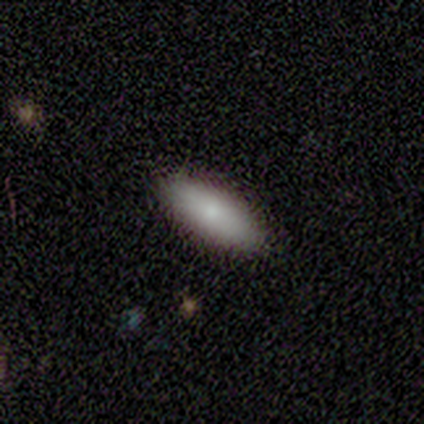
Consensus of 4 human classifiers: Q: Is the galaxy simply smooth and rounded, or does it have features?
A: smooth — 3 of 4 (75%).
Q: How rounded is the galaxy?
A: in between — 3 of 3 (100%).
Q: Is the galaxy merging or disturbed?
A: none — 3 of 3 (100%).